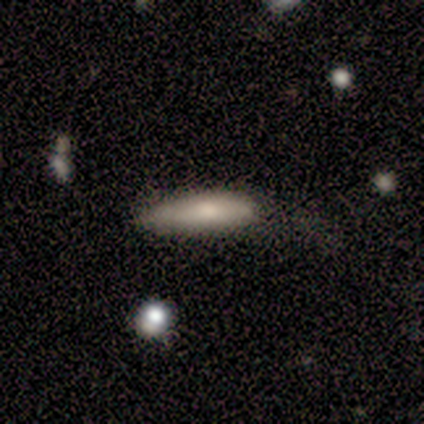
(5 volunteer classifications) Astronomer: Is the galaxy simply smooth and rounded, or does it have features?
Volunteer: smooth — 60% (runner-up: featured or disk, 40%).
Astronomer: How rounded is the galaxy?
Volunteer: cigar-shaped — 67%.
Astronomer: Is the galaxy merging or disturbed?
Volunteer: none — 60%.